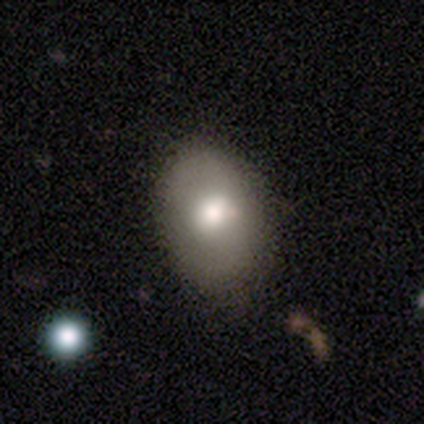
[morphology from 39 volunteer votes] smooth-or-featured: smooth: 72% | featured or disk: 21% | star or artifact: 8%
  how-rounded: in between: 86% | round: 14% | cigar-shaped: 0%
  merging: none: 78% | minor disturbance: 14% | major disturbance: 8% | merger: 0%